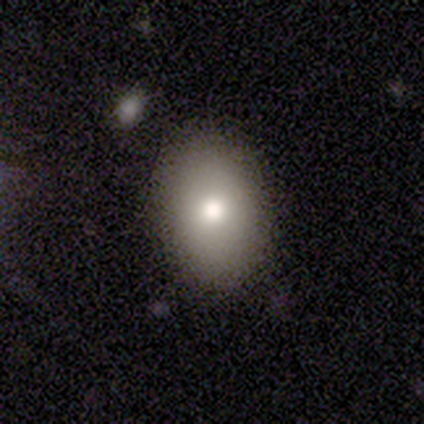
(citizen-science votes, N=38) Smooth or featured?
  - smooth: 76% *
  - star or artifact: 13%
  - featured or disk: 11%
How rounded?
  - in between: 79% *
  - round: 17%
  - cigar-shaped: 3%
Merging?
  - none: 88% *
  - minor disturbance: 12%
  - major disturbance: 0%
  - merger: 0%